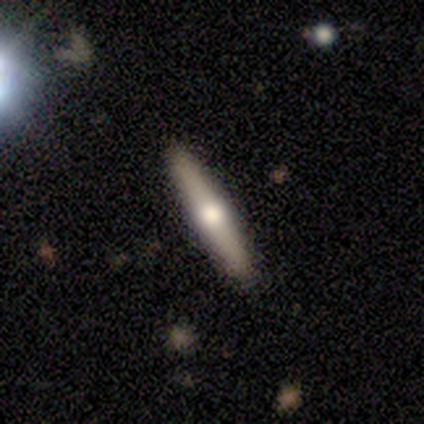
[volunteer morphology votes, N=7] type=featured or disk (71%); edge-on=yes (100%); edge-on bulge=rounded (80%); merging=none (86%).